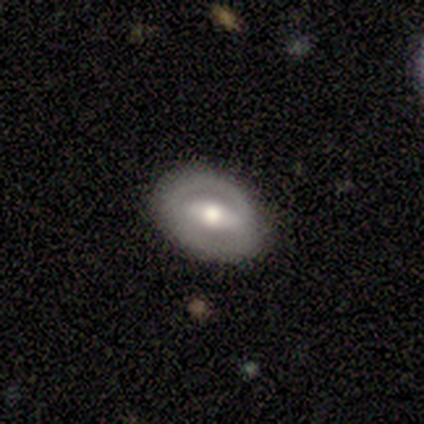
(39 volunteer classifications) smooth-or-featured: featured or disk: 74% | smooth: 26% | star or artifact: 0%
  disk-edge-on: no: 83% | yes: 17%
    bar: strong: 50% | weak: 38% | no: 12%
    has-spiral-arms: no: 71% | yes: 29%
    bulge-size: moderate: 79% | large: 8% | small: 8% | none: 4% | dominant: 0%
  merging: none: 82% | minor disturbance: 10% | major disturbance: 5% | merger: 3%